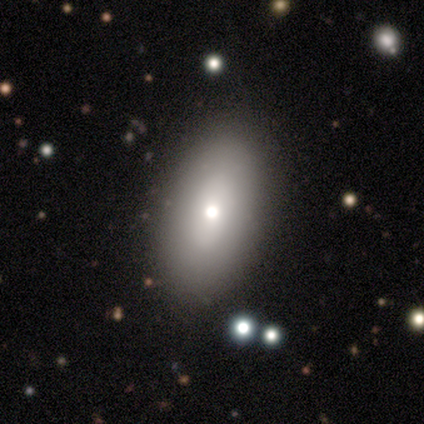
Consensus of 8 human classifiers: Smooth or featured?
  - smooth: 62% *
  - featured or disk: 25%
  - star or artifact: 12%
How rounded?
  - in between: 100% *
  - round: 0%
  - cigar-shaped: 0%
Merging?
  - none: 86% *
  - minor disturbance: 14%
  - major disturbance: 0%
  - merger: 0%